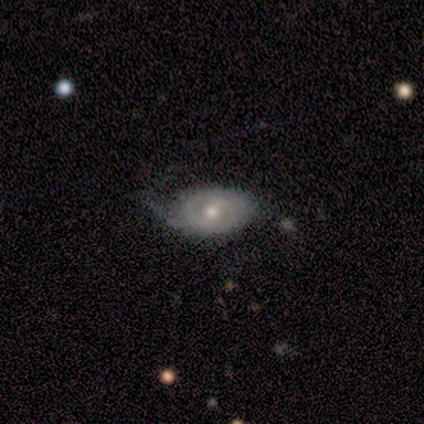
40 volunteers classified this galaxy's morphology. type=featured or disk (72%); edge-on=no (86%); bar=no (64%); spiral arms=yes (92%); winding=tight (48%); arm count=2 (52%); bulge=moderate (64%); merging=none (52%).